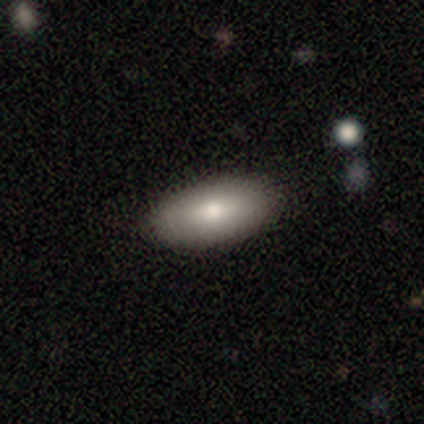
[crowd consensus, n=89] This appears to be a smooth galaxy with no disk features (78%) that is in between round and cigar-shaped (96%). Merging: none (91%).